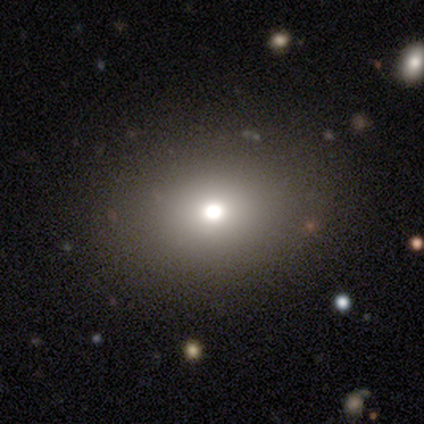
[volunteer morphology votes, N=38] smooth 58%, star or artifact 24%, featured or disk 18%. Down the decision tree: how rounded — round (55%); merging — none (90%).